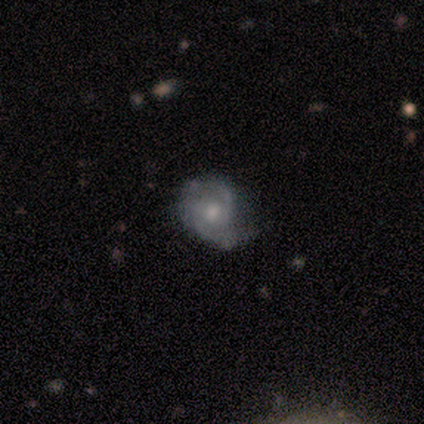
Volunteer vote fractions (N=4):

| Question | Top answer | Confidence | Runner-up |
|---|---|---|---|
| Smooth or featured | featured or disk | 100% | — |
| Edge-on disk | no | 100% | — |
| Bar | weak | 75% | no (25%) |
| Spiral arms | yes | 100% | — |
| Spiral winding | tight | 50% | tied: medium (50%) |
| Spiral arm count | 2 | 75% | can't tell (25%) |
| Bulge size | moderate | 100% | — |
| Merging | none | 75% | minor disturbance (25%) |